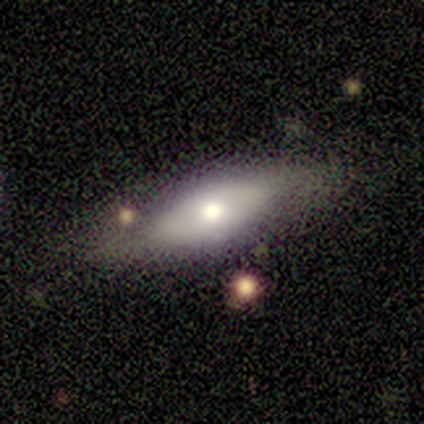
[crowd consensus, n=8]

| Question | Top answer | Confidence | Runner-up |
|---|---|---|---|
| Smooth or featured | smooth | 62% | featured or disk (38%) |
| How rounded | in between | 80% | cigar-shaped (20%) |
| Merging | none | 75% | minor disturbance (25%) |